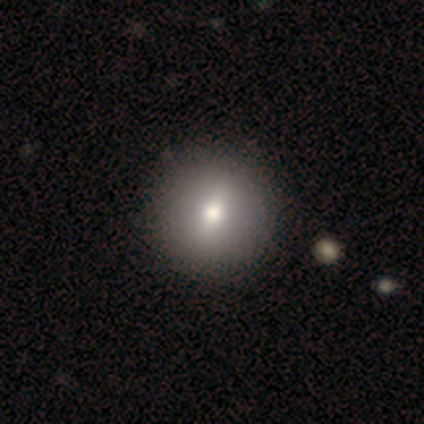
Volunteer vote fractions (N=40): Overall: smooth (75%). How rounded: round (90%). Merging: none (66%).